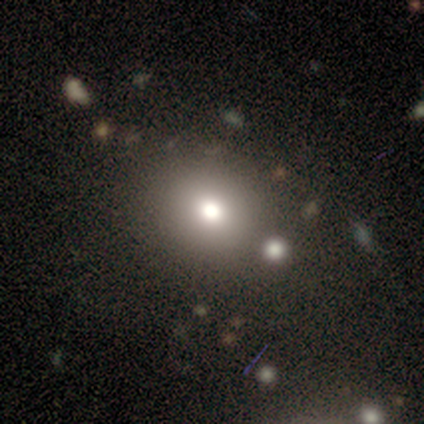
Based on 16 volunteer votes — Q: Smooth or featured?
A: smooth (69%); runner-up: featured or disk (19%)
Q: How rounded?
A: round (55%); runner-up: in between (45%)
Q: Merging?
A: none (79%); runner-up: minor disturbance (14%)